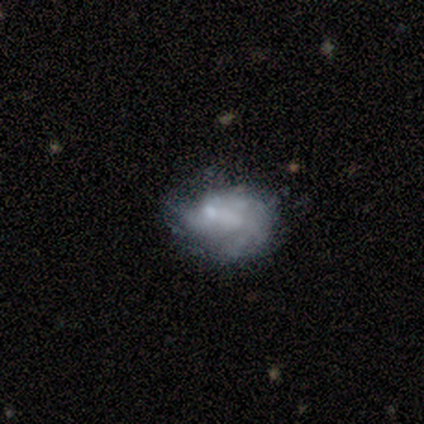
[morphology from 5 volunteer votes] Smooth or featured? featured or disk (60%)
Edge-on disk? no (100%)
Bar? no (100%)
Spiral arms? no (100%)
Bulge size? none (67%)
Merging? none (60%)